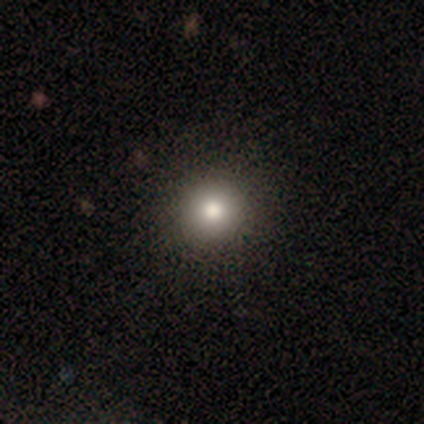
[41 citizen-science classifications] smooth 95%, featured or disk 2%, star or artifact 2%. Down the decision tree: how rounded — round (97%); merging — none (70%).